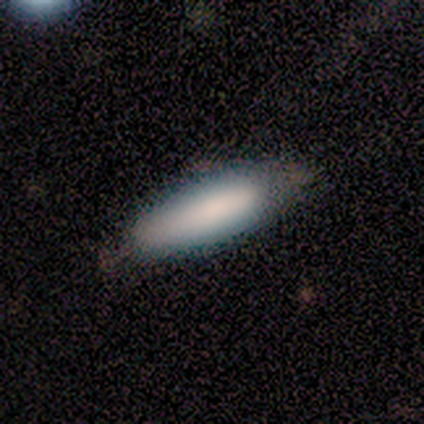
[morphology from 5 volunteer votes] smooth_or_featured: smooth (p=1.00)
how_rounded: cigar-shaped (p=0.60) [alt: in between p=0.40]
merging: none (p=0.80) [alt: minor disturbance p=0.20]